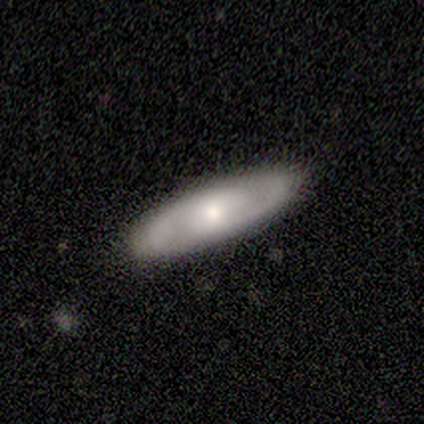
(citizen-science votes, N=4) A smooth galaxy with no disk features (75%) that is cigar-shaped (67%).

Vote fractions:
- Smooth or featured? smooth: 75% / featured or disk: 25% / star or artifact: 0%
- How rounded? cigar-shaped: 67% / in between: 33% / round: 0%
- Merging? none: 100% / minor disturbance: 0% / major disturbance: 0% / merger: 0%